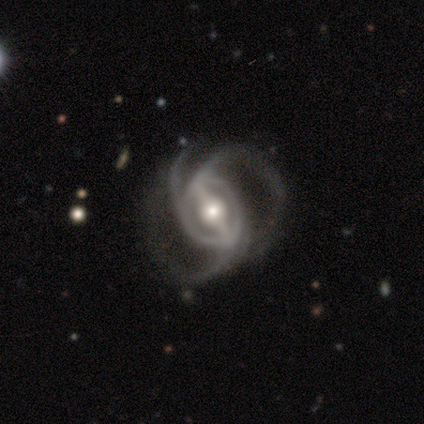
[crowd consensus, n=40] Smooth or featured?
  - featured or disk: 100% *
  - smooth: 0%
  - star or artifact: 0%
Edge-on disk?
  - no: 100% *
  - yes: 0%
Bar?
  - strong: 88% *
  - weak: 10%
  - no: 2%
Spiral arms?
  - yes: 100% *
  - no: 0%
Spiral winding?
  - medium: 62% *
  - loose: 30%
  - tight: 8%
Spiral arm count?
  - 3: 88% *
  - 4: 5%
  - can't tell: 5%
  - 2: 2%
  - 1: 0%
  - more than 4: 0%
Bulge size?
  - moderate: 72% *
  - large: 22%
  - dominant: 2%
  - small: 2%
  - none: 0%
Merging?
  - none: 40% *
  - major disturbance: 25%
  - minor disturbance: 10%
  - merger: 2%